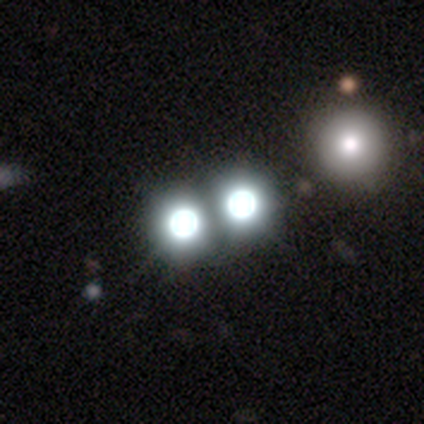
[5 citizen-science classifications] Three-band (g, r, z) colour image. It shows a star or artifact, not a galaxy (80%).